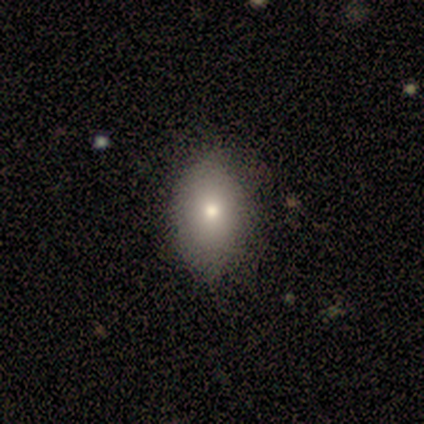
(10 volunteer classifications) smooth-or-featured: smooth: 60% | featured or disk: 40% | star or artifact: 0%
  how-rounded: in between: 83% | round: 17% | cigar-shaped: 0%
  merging: none: 80% | minor disturbance: 10% | major disturbance: 10% | merger: 0%